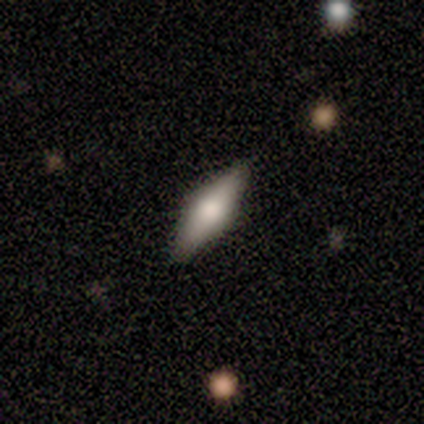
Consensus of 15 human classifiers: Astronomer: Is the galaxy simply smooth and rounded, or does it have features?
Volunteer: featured or disk — 53% (runner-up: smooth, 40%).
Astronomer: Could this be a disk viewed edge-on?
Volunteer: yes — 88%.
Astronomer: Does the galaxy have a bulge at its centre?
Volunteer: rounded — 100%.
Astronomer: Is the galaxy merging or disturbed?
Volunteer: none — 71%.